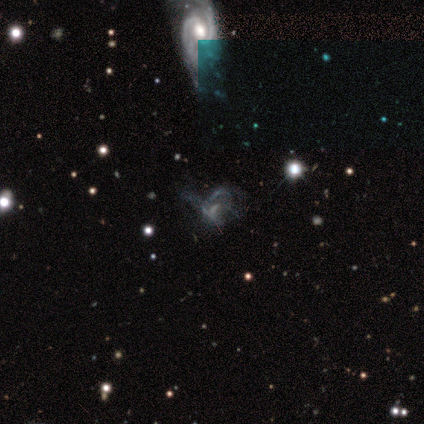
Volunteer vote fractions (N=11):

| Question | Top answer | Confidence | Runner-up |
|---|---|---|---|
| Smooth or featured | featured or disk | 64% | star or artifact (36%) |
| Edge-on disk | no | 100% | — |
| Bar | no | 100% | — |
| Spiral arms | no | 71% | yes (29%) |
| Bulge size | none | 100% | — |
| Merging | major disturbance | 71% | none (29%) |